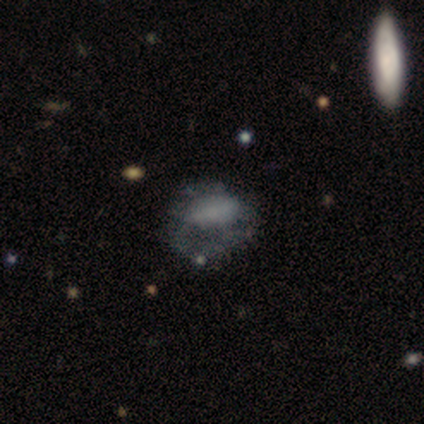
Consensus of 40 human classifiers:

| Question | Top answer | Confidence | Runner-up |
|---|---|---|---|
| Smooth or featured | smooth | 48% | tied: featured or disk (48%) |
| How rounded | in between | 58% | round (37%) |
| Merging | major disturbance | 53% | none (24%) |